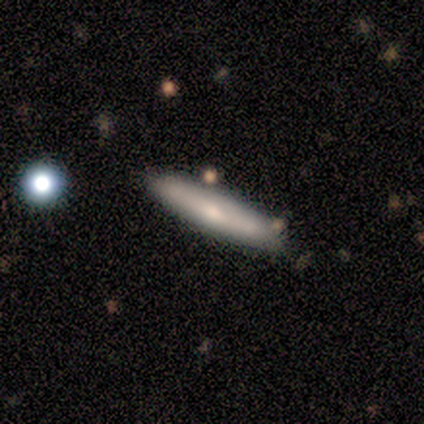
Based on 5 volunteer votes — Smooth or featured: smooth — 80% (featured or disk — 20%)
How rounded: cigar-shaped — 100%
Merging: none — 60% (minor disturbance — 40%)